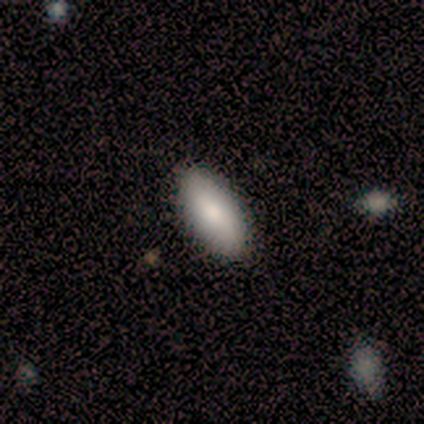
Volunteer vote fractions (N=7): A smooth galaxy with no disk features (43%, tied with featured or disk) that is in between round and cigar-shaped (100%). Merging: none (100%).